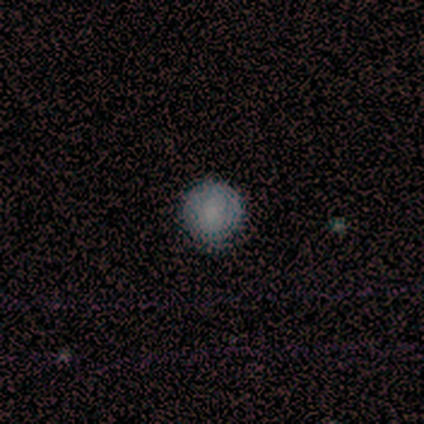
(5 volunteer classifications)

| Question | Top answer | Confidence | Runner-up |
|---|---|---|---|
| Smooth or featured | featured or disk | 60% | smooth (40%) |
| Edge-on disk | no | 100% | — |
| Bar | no | 100% | — |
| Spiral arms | yes | 67% | no (33%) |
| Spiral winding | tight | 100% | — |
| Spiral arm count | can't tell | 100% | — |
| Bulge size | none | 67% | moderate (33%) |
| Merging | none | 80% | minor disturbance (20%) |